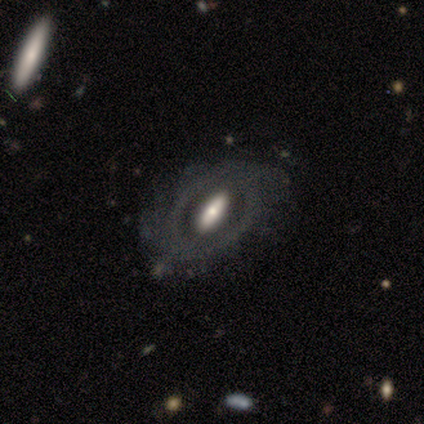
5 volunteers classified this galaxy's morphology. Smooth or featured? featured or disk (100%)
Edge-on disk? no (80%)
Bar? no (75%)
Spiral arms? no (75%)
Bulge size? moderate (50%)
Merging? none (80%)